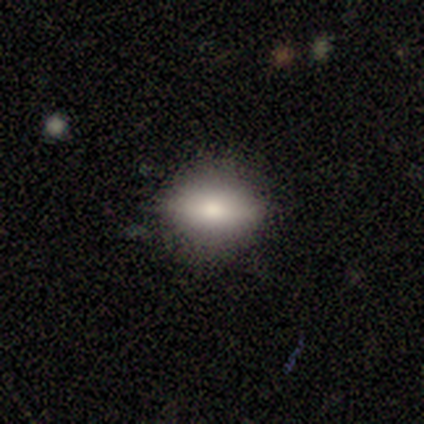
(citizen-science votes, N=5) This appears to be a smooth galaxy with no disk features (80%) that is in between round and cigar-shaped (75%). Merging: none (80%).